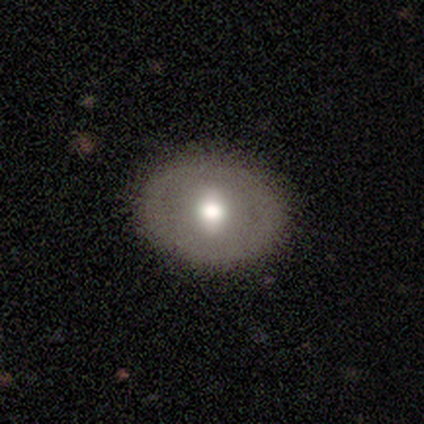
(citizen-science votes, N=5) smooth_or_featured: smooth (p=0.40) [tied with: featured or disk p=0.40]
how_rounded: round (p=1.00)
merging: none (p=0.75) [alt: major disturbance p=0.25]